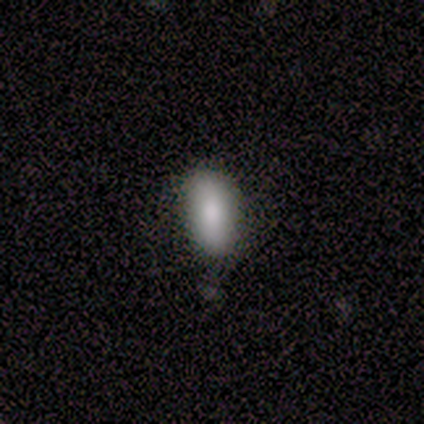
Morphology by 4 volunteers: Volunteers were most divided on "how rounded": in between: 75%, cigar-shaped: 25%, round: 0%. More confident: smooth or featured — smooth (100%); merging — none (100%).